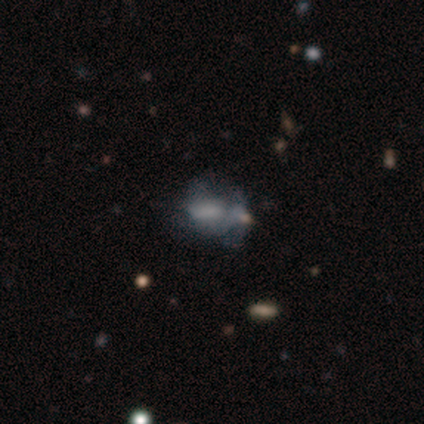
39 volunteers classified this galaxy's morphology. Q: Smooth or featured?
A: featured or disk (56%); runner-up: smooth (36%)
Q: Edge-on disk?
A: no (95%); runner-up: yes (5%)
Q: Bar?
A: no (76%); runner-up: weak (19%)
Q: Spiral arms?
A: no (86%); runner-up: yes (14%)
Q: Bulge size?
A: none (38%); runner-up: small (33%)
Q: Merging?
A: none (31%); runner-up: major disturbance (28%)